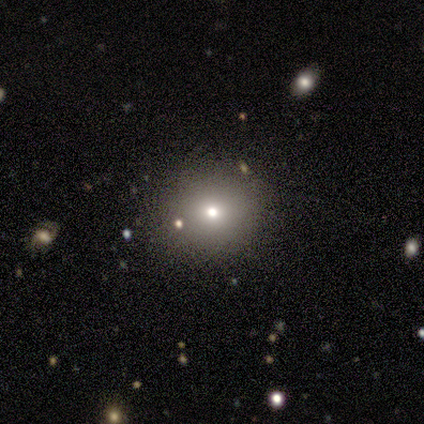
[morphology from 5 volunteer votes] This appears to be a smooth galaxy with no disk features (80%) that is round (100%). Merging: none (100%).